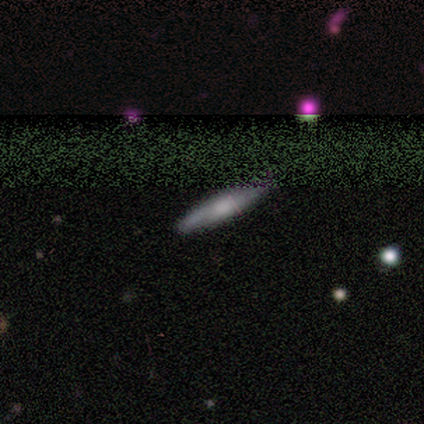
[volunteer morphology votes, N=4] smooth_or_featured: featured or disk (p=0.50) [alt: smooth p=0.25]
disk_edge_on: yes (p=0.50) [tied with: no p=0.50]
edge_on_bulge: rounded (p=1.00)
merging: none (p=1.00)